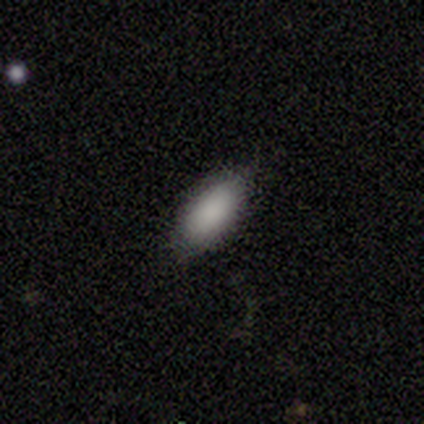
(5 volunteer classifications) Smooth or featured: smooth — 100%
How rounded: in between — 100%
Merging: none — 100%